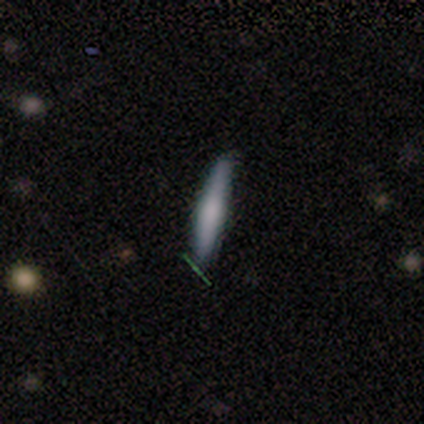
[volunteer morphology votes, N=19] smooth_or_featured: smooth (p=0.58) [alt: featured or disk p=0.32]
how_rounded: cigar-shaped (p=0.91) [alt: in between p=0.09]
merging: none (p=1.00)